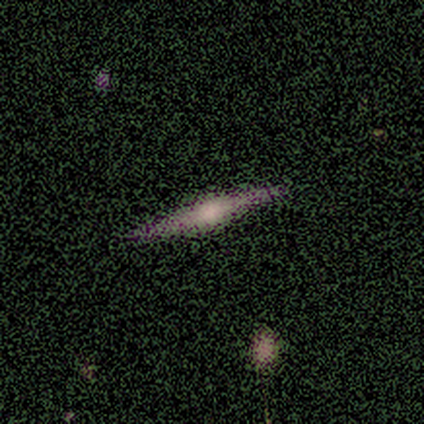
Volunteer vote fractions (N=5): This appears to be a featured or disk galaxy (100%) viewed edge-on (100%) with a rounded central bulge (80%). Merging: none (80%).